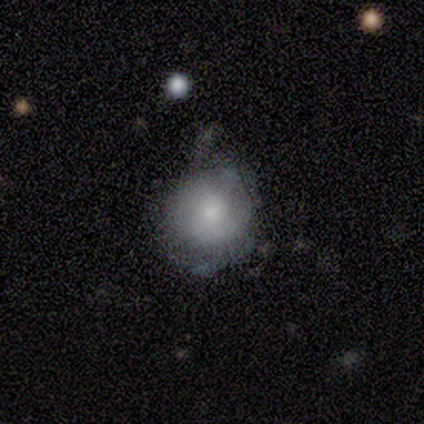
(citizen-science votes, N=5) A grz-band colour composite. It shows a smooth galaxy with no disk features (80%) that is round (100%). Merging: none (60%).